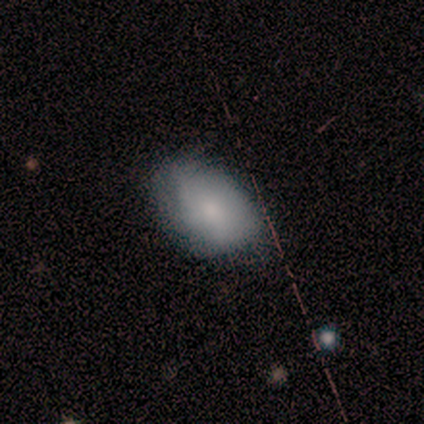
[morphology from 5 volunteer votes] Smooth or featured: smooth — 80% (featured or disk — 20%)
How rounded: in between — 75% (round — 25%)
Merging: none — 80% (minor disturbance — 20%)